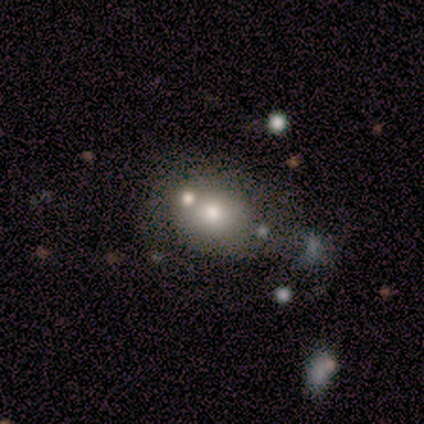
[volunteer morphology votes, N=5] A smooth galaxy with no disk features (60%) that is in between round and cigar-shaped (67%). Merging: none (50%).